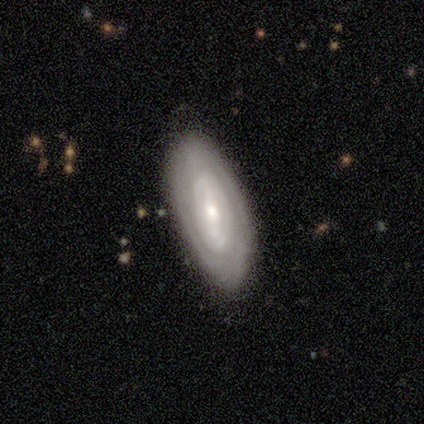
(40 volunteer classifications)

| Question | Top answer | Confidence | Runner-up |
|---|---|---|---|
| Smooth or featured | featured or disk | 80% | smooth (20%) |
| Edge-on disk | no | 97% | yes (3%) |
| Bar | weak | 42% | strong (35%) |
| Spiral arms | yes | 84% | no (16%) |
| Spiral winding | tight | 73% | loose (15%) |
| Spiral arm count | can't tell | 62% | 2 (31%) |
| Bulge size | moderate | 52% | small (39%) |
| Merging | none | 80% | minor disturbance (15%) |